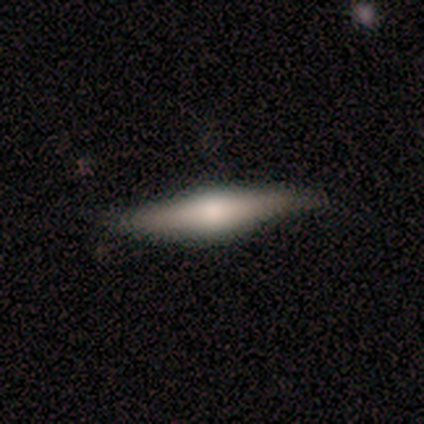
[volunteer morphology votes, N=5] Q: Smooth or featured?
A: featured or disk (60%); runner-up: smooth (40%)
Q: Edge-on disk?
A: yes (100%)
Q: Edge-on bulge?
A: rounded (100%)
Q: Merging?
A: none (80%); runner-up: minor disturbance (20%)